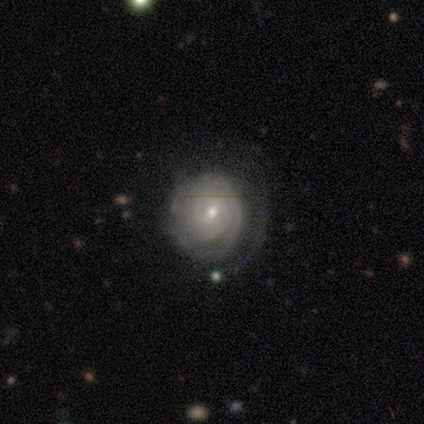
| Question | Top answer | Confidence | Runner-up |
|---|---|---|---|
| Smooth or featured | featured or disk | 100% | — |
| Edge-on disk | no | 100% | — |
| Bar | no | 100% | — |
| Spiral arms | yes | 100% | — |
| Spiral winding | medium | 100% | — |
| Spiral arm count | can't tell | 100% | — |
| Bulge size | small | 100% | — |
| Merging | none | 100% | — |